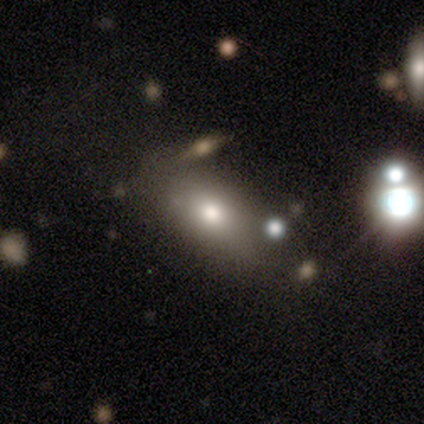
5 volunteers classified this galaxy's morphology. Smooth or featured? star or artifact (60%)